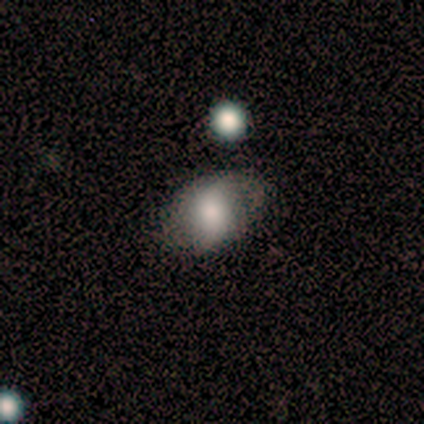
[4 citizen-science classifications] smooth_or_featured: smooth (p=0.50) [alt: featured or disk p=0.25]
how_rounded: in between (p=1.00)
merging: none (p=0.67) [alt: minor disturbance p=0.33]